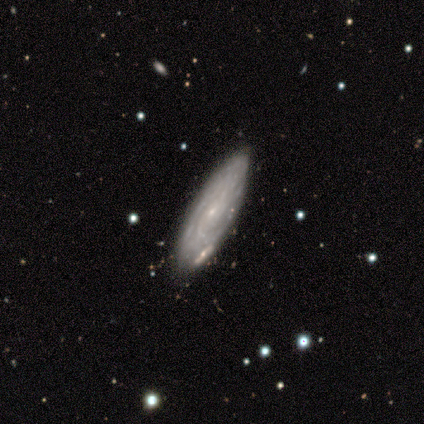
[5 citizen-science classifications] This appears to be a featured or disk galaxy (80%) viewed edge-on (50%, tied with no) with no central bulge (50%, tied with rounded). Merging: none (75%).